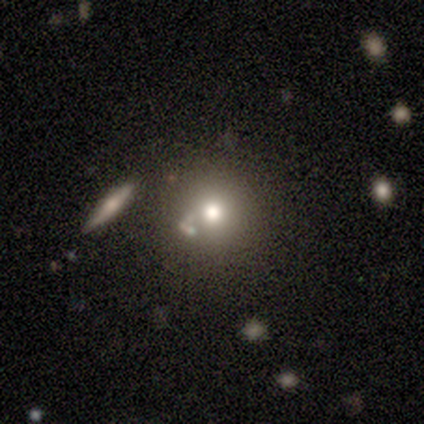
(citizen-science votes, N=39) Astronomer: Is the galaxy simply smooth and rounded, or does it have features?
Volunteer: smooth — 67%.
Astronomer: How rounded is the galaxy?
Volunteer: round — 85%.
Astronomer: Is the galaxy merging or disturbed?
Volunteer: none — 74%.